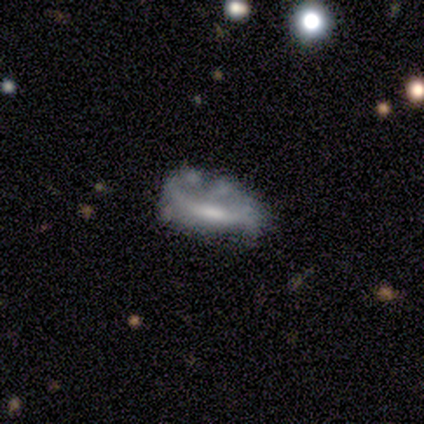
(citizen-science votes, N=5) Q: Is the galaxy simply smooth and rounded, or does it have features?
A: featured or disk — 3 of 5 (60%).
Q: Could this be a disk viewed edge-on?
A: no — 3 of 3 (100%).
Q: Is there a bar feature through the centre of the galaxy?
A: weak — 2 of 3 (67%).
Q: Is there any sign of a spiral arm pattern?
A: no — 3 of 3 (100%).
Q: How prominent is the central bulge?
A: moderate — 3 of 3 (100%).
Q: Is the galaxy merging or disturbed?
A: none — 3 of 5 (60%).